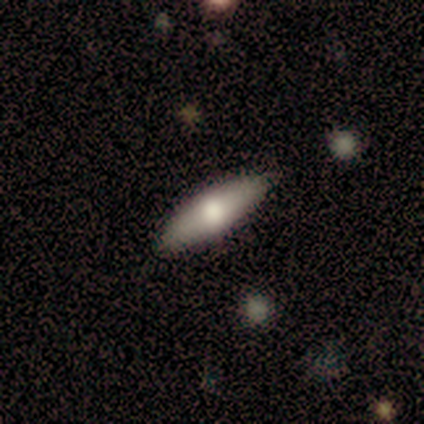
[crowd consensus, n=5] A featured or disk galaxy (60%) viewed edge-on (67%) with a boxy central bulge (50%, tied with rounded).

Vote fractions:
- Smooth or featured? featured or disk: 60% / smooth: 40% / star or artifact: 0%
- Edge-on disk? yes: 67% / no: 33%
- Edge-on bulge? boxy: 50% (tied) / rounded: 50% (tied) / none: 0%
- Merging? none: 100% / minor disturbance: 0% / major disturbance: 0% / merger: 0%